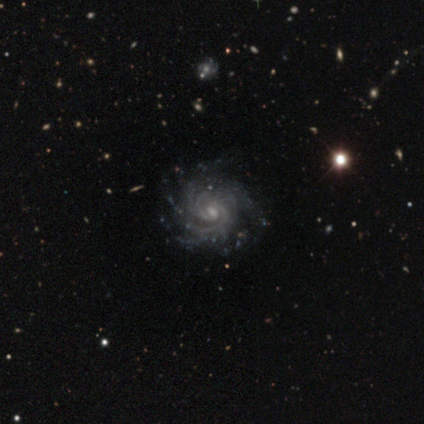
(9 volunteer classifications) featured or disk 89%, star or artifact 11%, smooth 0%. Down the decision tree: edge-on disk — no (100%); bar — weak (75%); spiral arms — yes (100%); spiral arm count — more than 4 (62%); spiral winding — tight (88%); bulge size — small (62%); merging — none (88%).